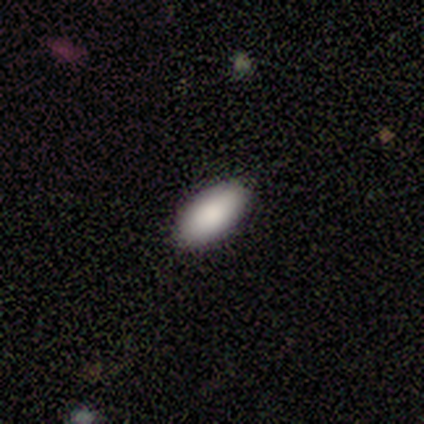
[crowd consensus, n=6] Smooth or featured? 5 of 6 (83%) said smooth. How rounded? 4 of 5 (80%) said in between. Merging? 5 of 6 (83%) said none.